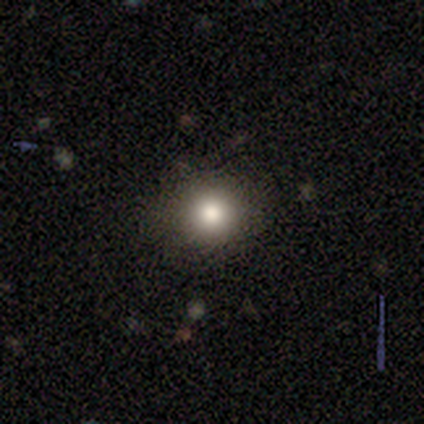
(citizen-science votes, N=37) Morphology: type=smooth (76%); roundness=round (96%); merging=none (87%).